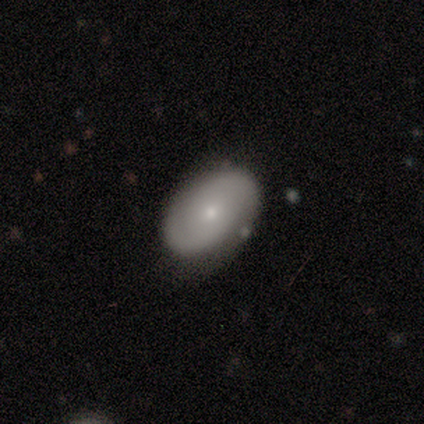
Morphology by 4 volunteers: Smooth or featured?
  - featured or disk: 75% *
  - smooth: 25%
  - star or artifact: 0%
Edge-on disk?
  - no: 100% *
  - yes: 0%
Bar?
  - no: 100% *
  - strong: 0%
  - weak: 0%
Spiral arms?
  - yes: 67% *
  - no: 33%
Spiral winding?
  - tight: 50% * (tied)
  - medium: 50% * (tied)
  - loose: 0%
Spiral arm count?
  - 2: 100% *
  - 1: 0%
  - 3: 0%
  - 4: 0%
  - more than 4: 0%
  - can't tell: 0%
Bulge size?
  - small: 100% *
  - dominant: 0%
  - large: 0%
  - moderate: 0%
  - none: 0%
Merging?
  - none: 75% *
  - minor disturbance: 25%
  - major disturbance: 0%
  - merger: 0%